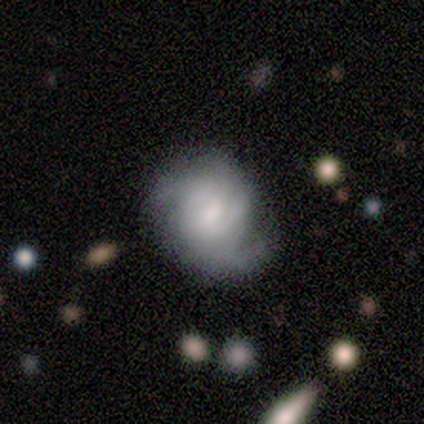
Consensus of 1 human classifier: smooth_or_featured: featured or disk (p=1.00)
disk_edge_on: no (p=1.00)
bar: no (p=1.00)
has_spiral_arms: yes (p=1.00)
spiral_winding: loose (p=1.00)
spiral_arm_count: 1 (p=1.00)
bulge_size: dominant (p=1.00)
merging: none (p=1.00)